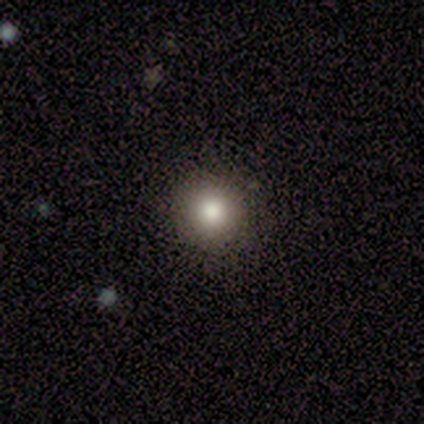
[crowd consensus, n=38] This appears to be a smooth galaxy with no disk features (79%) that is round (93%). Merging: none (86%).